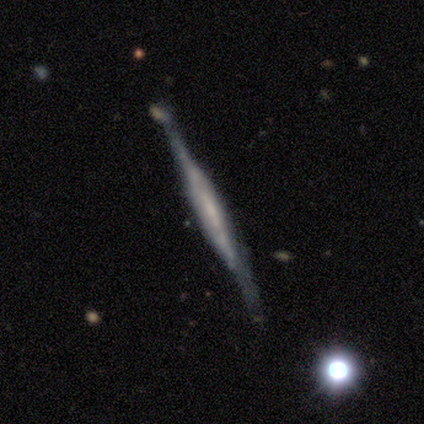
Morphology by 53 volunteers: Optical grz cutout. It shows a featured or disk galaxy (77%) viewed edge-on (93%) with a boxy central bulge (53%). Merging: none (67%).